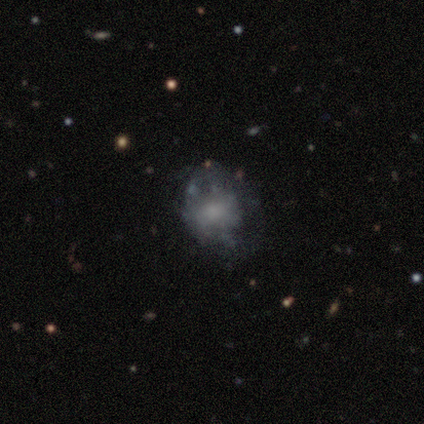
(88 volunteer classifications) Q: Smooth or featured?
A: featured or disk (44%); runner-up: smooth (42%)
Q: Edge-on disk?
A: no (97%); runner-up: yes (3%)
Q: Bar?
A: no (82%); runner-up: weak (13%)
Q: Spiral arms?
A: no (89%); runner-up: yes (11%)
Q: Bulge size?
A: small (34%); runner-up: moderate (32%)
Q: Merging?
A: none (51%); runner-up: minor disturbance (29%)